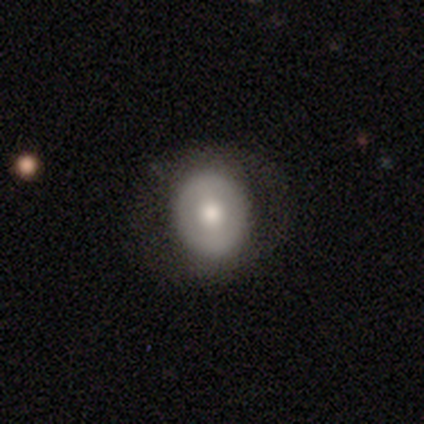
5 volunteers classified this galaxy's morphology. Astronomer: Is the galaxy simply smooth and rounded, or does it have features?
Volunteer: smooth — 60%.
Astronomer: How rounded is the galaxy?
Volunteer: round — 100%.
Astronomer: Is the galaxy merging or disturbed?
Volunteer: none — 100%.